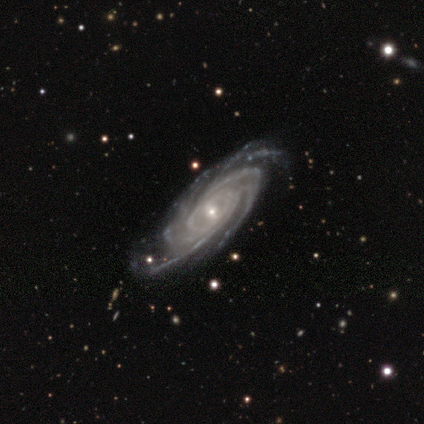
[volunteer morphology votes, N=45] This is clearly a featured or disk galaxy (96%). It is clearly not viewed edge-on (91%). Bar: possibly weak (51%). Spiral arm pattern: clearly yes (100%). Spiral arm count: marginally 4 (41%). Spiral winding: likely tight (77%). Central bulge: likely small (77%). Merging: clearly none (91%).